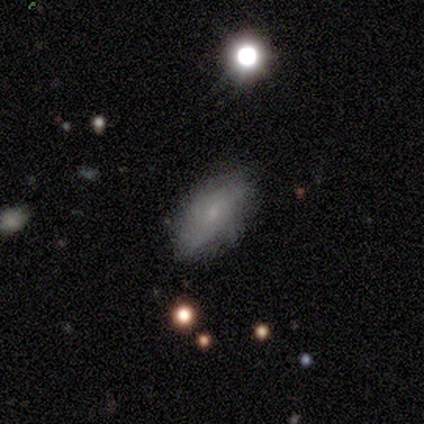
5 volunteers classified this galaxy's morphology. Overall: featured or disk (80%). Edge-on disk: no (100%). Bar: no (100%). Spiral arms: yes (50%, tied with no). Spiral arm count: can't tell (100%). Spiral winding: tight (50%, tied with medium). Bulge size: small (100%). Merging: none (80%).